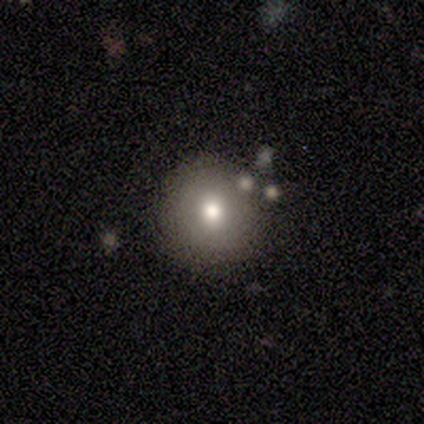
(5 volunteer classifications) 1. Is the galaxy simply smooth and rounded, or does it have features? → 100% smooth, 0% featured or disk, 0% star or artifact.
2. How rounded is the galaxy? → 100% round, 0% in between, 0% cigar-shaped.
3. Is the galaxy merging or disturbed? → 100% none, 0% minor disturbance, 0% major disturbance, 0% merger.